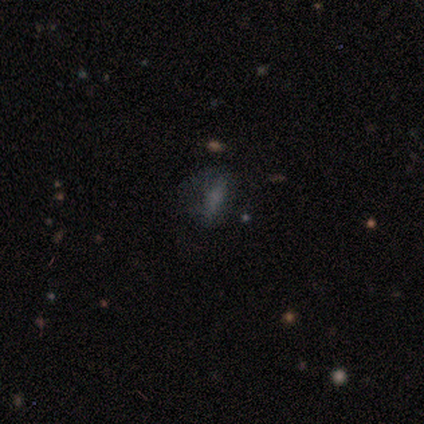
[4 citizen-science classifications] A smooth galaxy with no disk features (75%) that is in between round and cigar-shaped (67%). Merging: none (67%).